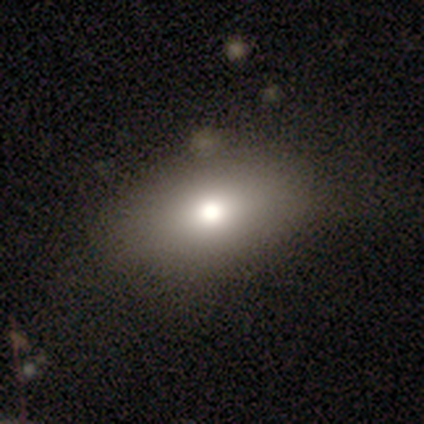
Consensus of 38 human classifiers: This appears to be a smooth galaxy with no disk features (76%) that is in between round and cigar-shaped (90%). Merging: none (81%).